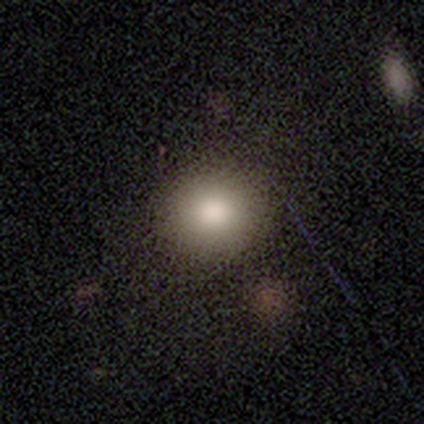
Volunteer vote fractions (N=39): smooth_or_featured: smooth (p=0.79) [alt: featured or disk p=0.13]
how_rounded: round (p=0.87) [alt: in between p=0.13]
merging: none (p=0.69) [alt: merger p=0.06]